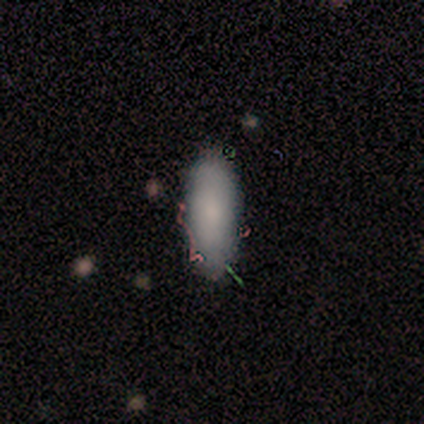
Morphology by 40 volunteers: Volunteers were most divided on "how rounded": in between: 73%, cigar-shaped: 27%, round: 0%. More confident: smooth or featured — smooth (82%); merging — none (75%).